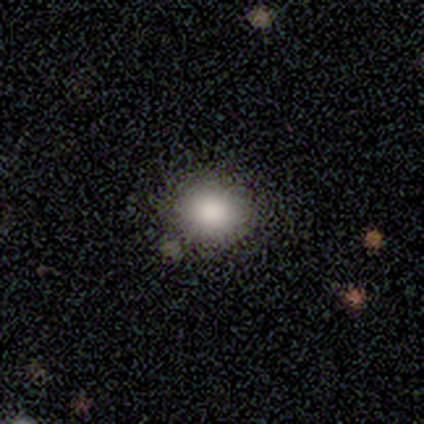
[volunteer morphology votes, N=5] Smooth or featured: smooth — 100%
How rounded: in between — 60% (round — 40%)
Merging: none — 100%